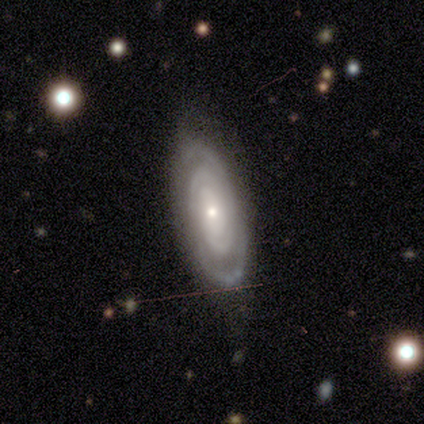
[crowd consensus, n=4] Smooth or featured?
  - featured or disk: 100% *
  - smooth: 0%
  - star or artifact: 0%
Edge-on disk?
  - no: 100% *
  - yes: 0%
Bar?
  - no: 50% *
  - strong: 25%
  - weak: 25%
Spiral arms?
  - yes: 75% *
  - no: 25%
Spiral winding?
  - tight: 100% *
  - medium: 0%
  - loose: 0%
Spiral arm count?
  - 2: 33% * (tied)
  - 3: 33% * (tied)
  - can't tell: 33% * (tied)
  - 1: 0%
  - 4: 0%
  - more than 4: 0%
Bulge size?
  - small: 100% *
  - dominant: 0%
  - large: 0%
  - moderate: 0%
  - none: 0%
Merging?
  - none: 75% *
  - minor disturbance: 25%
  - major disturbance: 0%
  - merger: 0%